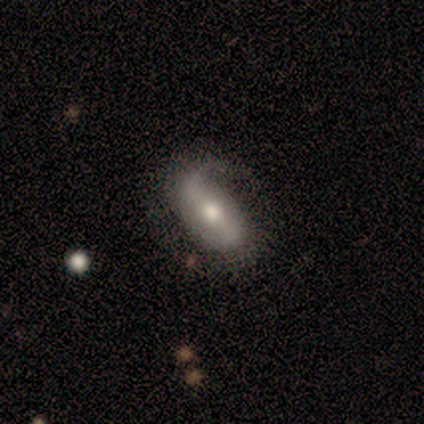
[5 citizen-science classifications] Smooth or featured: featured or disk — 60% (smooth — 40%)
Edge-on disk: no — 100%
Bar: strong — 33% (tied with weak — 33%; no — 33%)
Spiral arms: yes — 100%
Spiral winding: medium — 67% (loose — 33%)
Spiral arm count: 1 — 33% (tied with 2 — 33%; can't tell — 33%)
Bulge size: moderate — 100%
Merging: none — 40% (tied with minor disturbance — 40%)